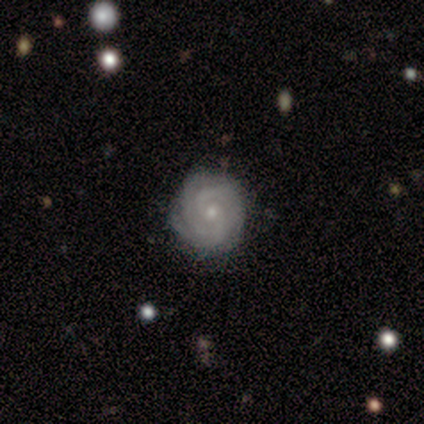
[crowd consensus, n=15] Volunteers were most divided on "spiral arm count": 3: 36%, 4: 27%, can't tell: 27%, 2: 9%, 1: 0%, more than 4: 0%. More confident: spiral arms — yes (100%); merging — none (93%); edge-on disk — no (92%); spiral winding — tight (82%); smooth or featured — featured or disk (80%); bulge size — small (73%); bar — no (64%).